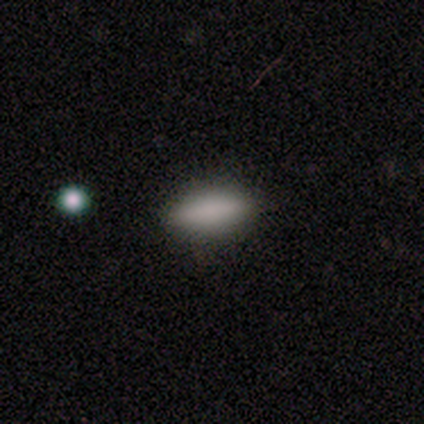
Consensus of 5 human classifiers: Smooth or featured: smooth — 100%
How rounded: in between — 80% (cigar-shaped — 20%)
Merging: none — 80% (minor disturbance — 20%)